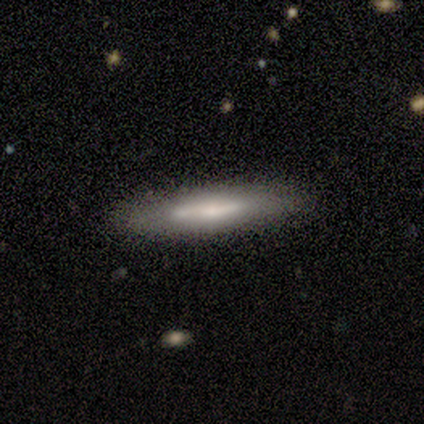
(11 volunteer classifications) Morphology: type=smooth (55%); roundness=cigar-shaped (83%); merging=none (90%).